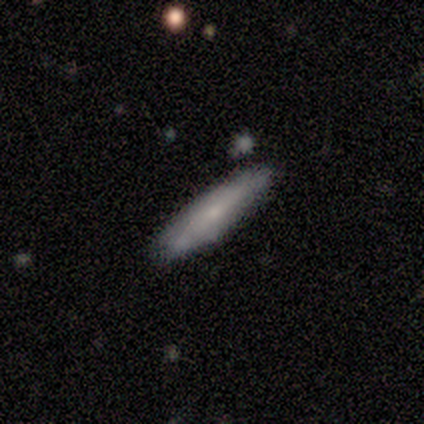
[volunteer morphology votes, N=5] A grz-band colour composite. It shows a smooth galaxy with no disk features (60%) that is cigar-shaped (67%). Merging: none (80%).